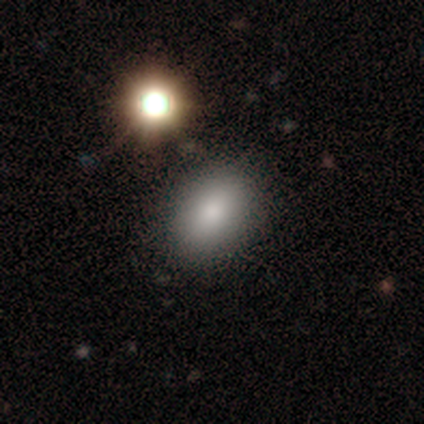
Q: Smooth or featured?
A: smooth (100%)
Q: How rounded?
A: in between (67%); runner-up: round (33%)
Q: Merging?
A: none (33%); tied with: minor disturbance (33%); merger (33%)